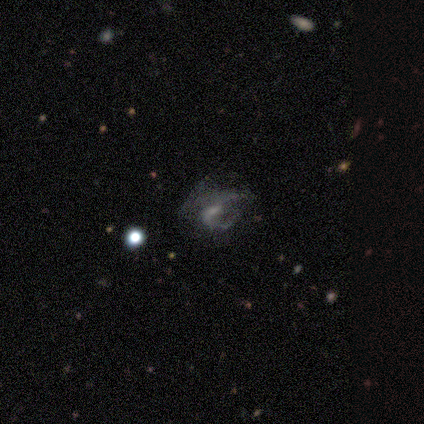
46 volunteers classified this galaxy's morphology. Q: Smooth or featured?
A: featured or disk (67%); runner-up: star or artifact (22%)
Q: Edge-on disk?
A: no (100%)
Q: Bar?
A: weak (48%); tied with: no (48%)
Q: Spiral arms?
A: yes (55%); runner-up: no (45%)
Q: Spiral winding?
A: tight (41%); runner-up: medium (35%)
Q: Spiral arm count?
A: can't tell (35%); runner-up: 1 (29%)
Q: Bulge size?
A: small (48%); runner-up: none (26%)
Q: Merging?
A: major disturbance (47%); runner-up: none (36%)